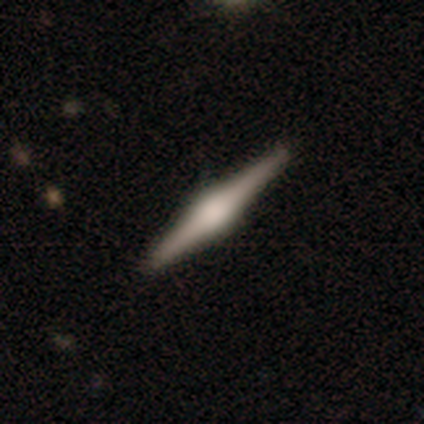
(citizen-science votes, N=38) Smooth or featured? 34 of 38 (89%) said featured or disk. Edge-on disk? 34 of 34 (100%) said yes. Edge-on bulge? 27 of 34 (79%) said rounded. Merging? 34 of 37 (92%) said none.